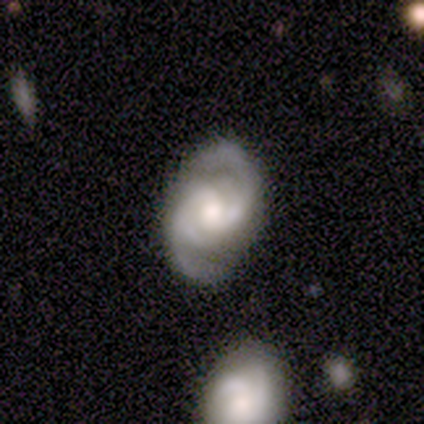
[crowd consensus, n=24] Smooth or featured?
  - featured or disk: 88% *
  - star or artifact: 8%
  - smooth: 4%
Edge-on disk?
  - no: 95% *
  - yes: 5%
Bar?
  - no: 55% *
  - weak: 45%
  - strong: 0%
Spiral arms?
  - yes: 100% *
  - no: 0%
Spiral winding?
  - medium: 60% *
  - tight: 30%
  - loose: 10%
Spiral arm count?
  - 2: 75% *
  - 4: 15%
  - 3: 10%
  - 1: 0%
  - more than 4: 0%
  - can't tell: 0%
Bulge size?
  - moderate: 50% *
  - small: 30%
  - large: 20%
  - dominant: 0%
  - none: 0%
Merging?
  - none: 73% *
  - minor disturbance: 23%
  - merger: 5%
  - major disturbance: 0%